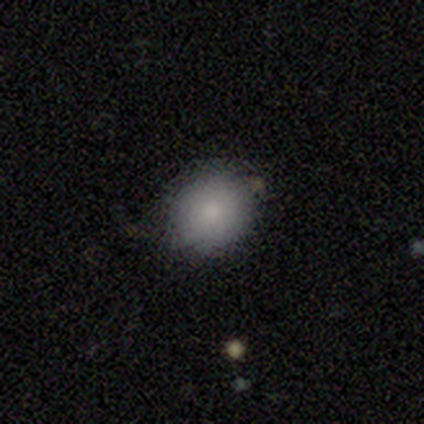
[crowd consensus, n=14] Smooth or featured: smooth — 93% (featured or disk — 7%)
How rounded: round — 92% (in between — 8%)
Merging: none — 86% (minor disturbance — 7%)